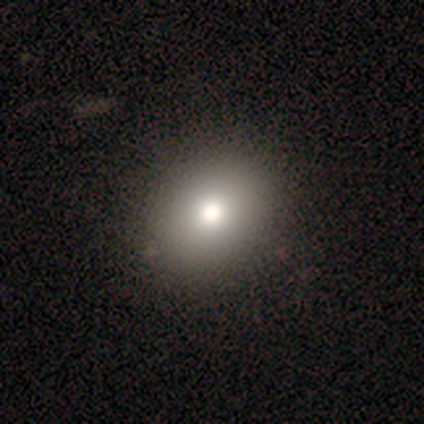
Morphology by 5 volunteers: Smooth or featured?
  - smooth: 80% *
  - featured or disk: 20%
  - star or artifact: 0%
How rounded?
  - round: 50% * (tied)
  - in between: 50% * (tied)
  - cigar-shaped: 0%
Merging?
  - none: 80% *
  - minor disturbance: 20%
  - major disturbance: 0%
  - merger: 0%